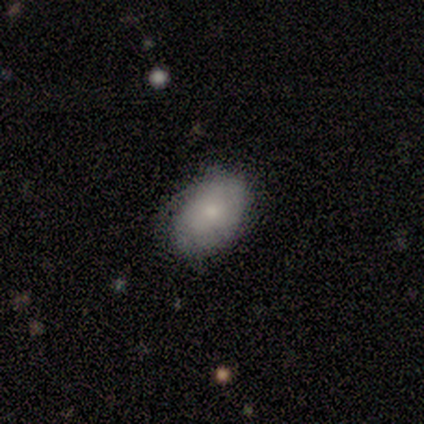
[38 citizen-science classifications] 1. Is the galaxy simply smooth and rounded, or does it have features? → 68% smooth, 16% featured or disk, 16% star or artifact.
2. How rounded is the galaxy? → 88% in between, 12% round, 0% cigar-shaped.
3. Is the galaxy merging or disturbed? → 69% none, 22% minor disturbance, 9% major disturbance, 0% merger.